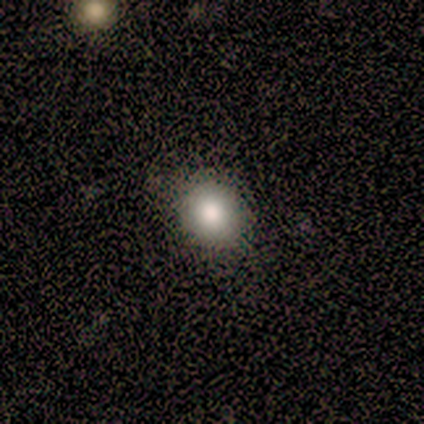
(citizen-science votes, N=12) Volunteers were most divided on "how rounded": round: 91%, in between: 9%, cigar-shaped: 0%. More confident: smooth or featured — smooth (92%); merging — none (92%).